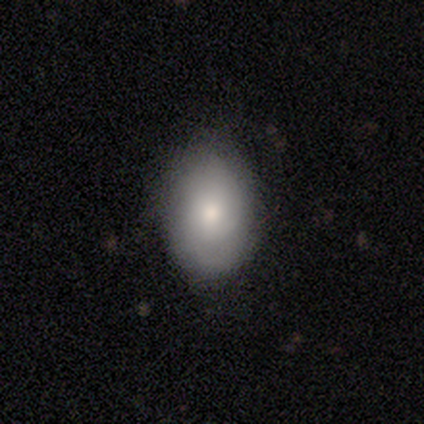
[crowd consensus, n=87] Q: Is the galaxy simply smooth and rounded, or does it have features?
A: smooth — 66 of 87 (76%).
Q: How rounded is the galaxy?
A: in between — 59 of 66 (89%).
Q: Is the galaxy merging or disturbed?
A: none — 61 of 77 (79%).